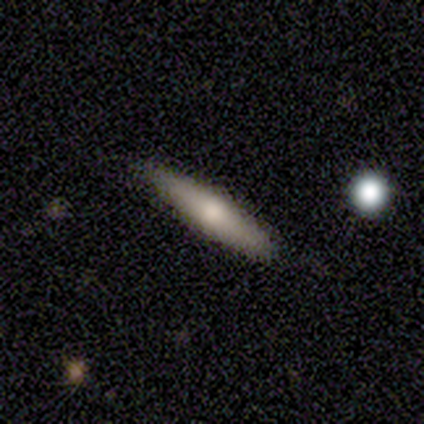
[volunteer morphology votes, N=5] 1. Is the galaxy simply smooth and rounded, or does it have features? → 60% featured or disk, 40% smooth, 0% star or artifact.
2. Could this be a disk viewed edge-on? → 100% yes, 0% no.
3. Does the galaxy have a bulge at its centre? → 67% rounded, 33% none, 0% boxy.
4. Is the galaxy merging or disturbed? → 80% none, 20% minor disturbance, 0% major disturbance, 0% merger.